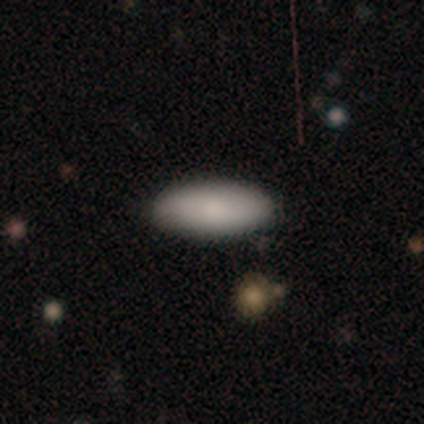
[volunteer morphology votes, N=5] type=smooth (100%); roundness=in between (100%); merging=none (80%).